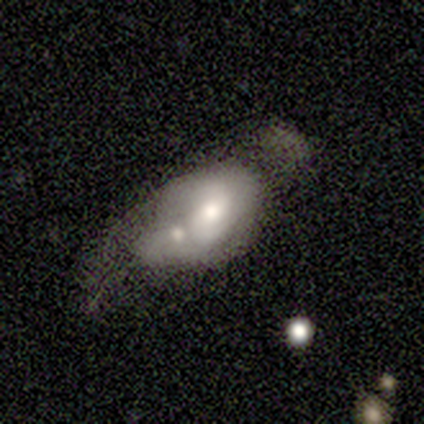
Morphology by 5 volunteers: smooth_or_featured: featured or disk (p=0.80) [alt: smooth p=0.20]
disk_edge_on: no (p=1.00)
bar: no (p=1.00)
has_spiral_arms: yes (p=1.00)
spiral_winding: medium (p=0.50) [tied with: loose p=0.50]
spiral_arm_count: 2 (p=1.00)
bulge_size: moderate (p=0.75) [alt: small p=0.25]
merging: none (p=0.40) [alt: minor disturbance p=0.20]